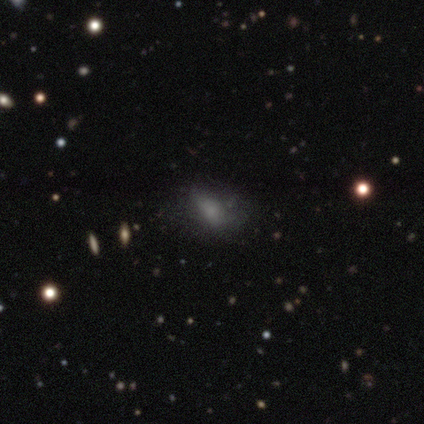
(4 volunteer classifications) Volunteers were most divided on "how rounded" (3-way tie): round: 33%, in between: 33%, cigar-shaped: 33%. More confident: smooth or featured — smooth (75%); merging — none (67%).